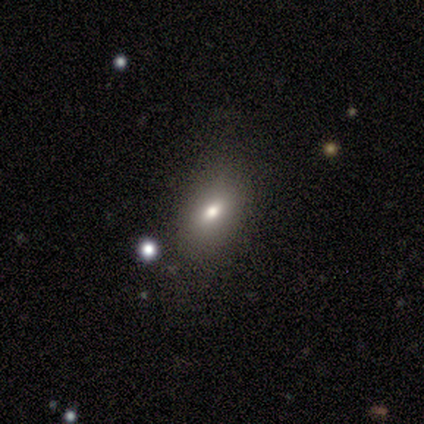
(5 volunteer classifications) Morphology: type=smooth (60%); roundness=in between (100%); merging=none (100%).